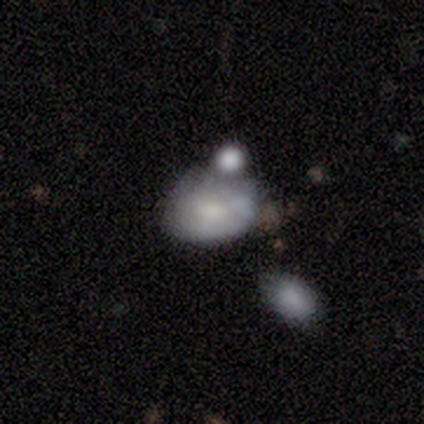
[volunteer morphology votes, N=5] Smooth or featured?
  - featured or disk: 60% *
  - smooth: 40%
  - star or artifact: 0%
Edge-on disk?
  - no: 100% *
  - yes: 0%
Bar?
  - no: 67% *
  - weak: 33%
  - strong: 0%
Spiral arms?
  - no: 67% *
  - yes: 33%
Bulge size?
  - small: 67% *
  - moderate: 33%
  - dominant: 0%
  - large: 0%
  - none: 0%
Merging?
  - none: 40% * (tied)
  - merger: 40% * (tied)
  - minor disturbance: 20%
  - major disturbance: 0%